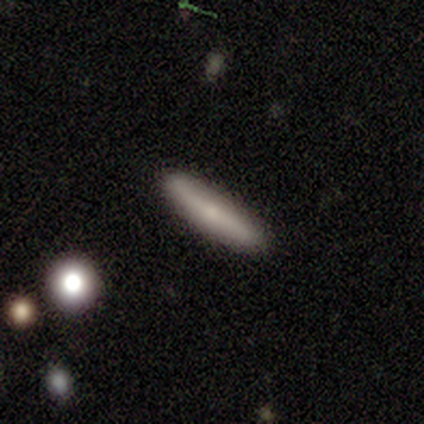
smooth_or_featured: smooth (p=0.54) [alt: featured or disk p=0.46]
how_rounded: cigar-shaped (p=1.00)
merging: none (p=0.92) [alt: minor disturbance p=0.08]